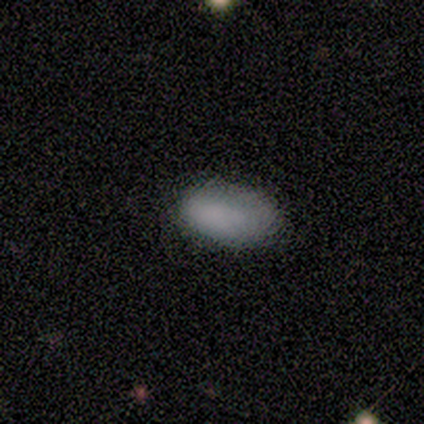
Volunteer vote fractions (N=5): Smooth or featured? smooth (100%)
How rounded? in between (80%)
Merging? none (60%)